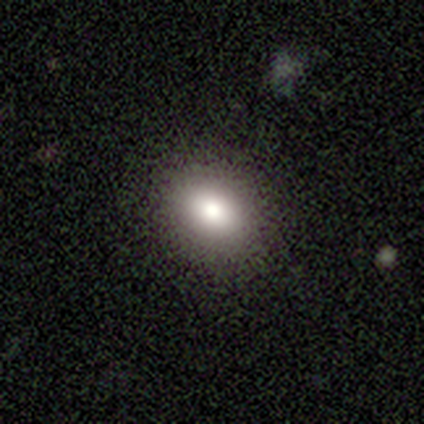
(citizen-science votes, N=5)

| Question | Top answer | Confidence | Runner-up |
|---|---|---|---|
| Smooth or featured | smooth | 60% | featured or disk (40%) |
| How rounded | round | 67% | in between (33%) |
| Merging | none | 100% | — |